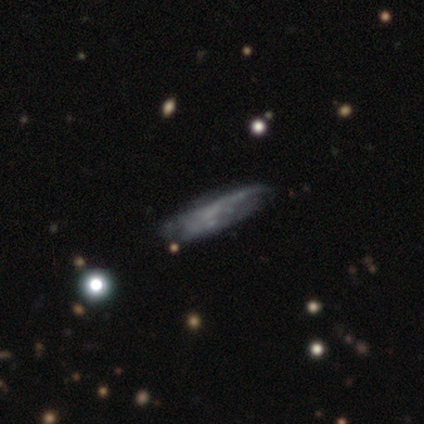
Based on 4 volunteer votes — Smooth or featured? 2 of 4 (50%) said featured or disk. Edge-on disk? 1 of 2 (50%, tied with no) said yes. Edge-on bulge? 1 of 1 (100%) said boxy. Merging? 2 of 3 (67%) said none.